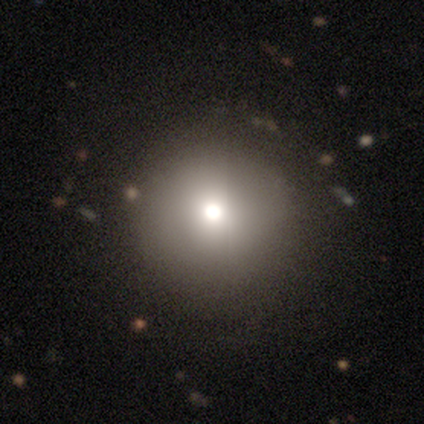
A smooth galaxy with no disk features (69%) that is round (100%).

Vote fractions:
- Smooth or featured? smooth: 69% / featured or disk: 19% / star or artifact: 12%
- How rounded? round: 100% / in between: 0% / cigar-shaped: 0%
- Merging? none: 93% / minor disturbance: 7% / major disturbance: 0% / merger: 0%